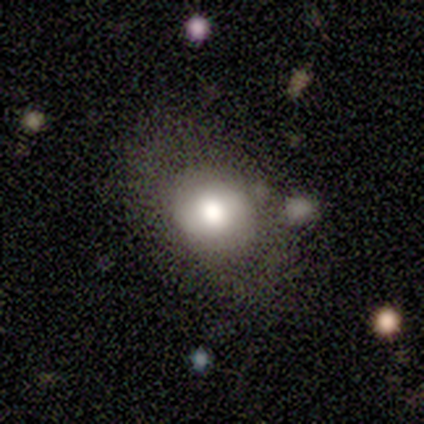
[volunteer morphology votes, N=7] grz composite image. It shows a featured or disk galaxy (71%) with no bar (60%), no spiral arms (80%) and a moderate central bulge (80%). Merging: minor disturbance (57%).